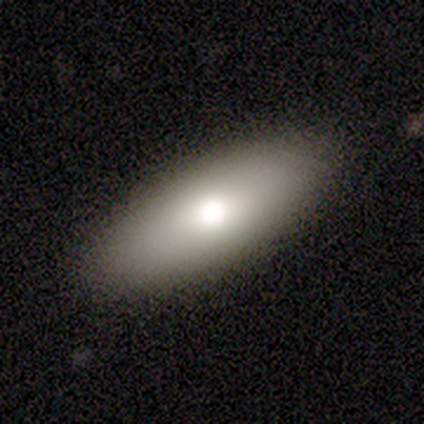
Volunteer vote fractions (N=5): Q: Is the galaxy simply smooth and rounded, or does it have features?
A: smooth — 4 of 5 (80%).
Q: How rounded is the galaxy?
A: in between — 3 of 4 (75%).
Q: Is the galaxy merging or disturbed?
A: none — 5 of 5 (100%).